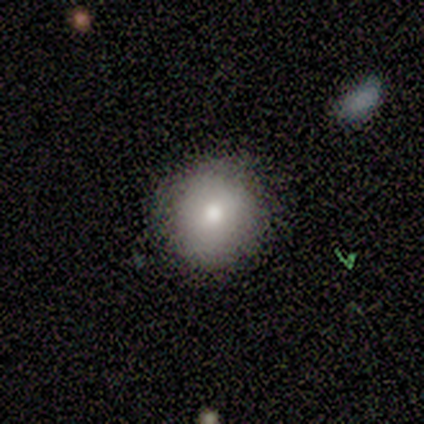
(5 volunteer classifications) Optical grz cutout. It shows a featured or disk galaxy (60%) with no bar (100%), no spiral arms (67%) and a moderate central bulge (100%). Merging: none (75%).